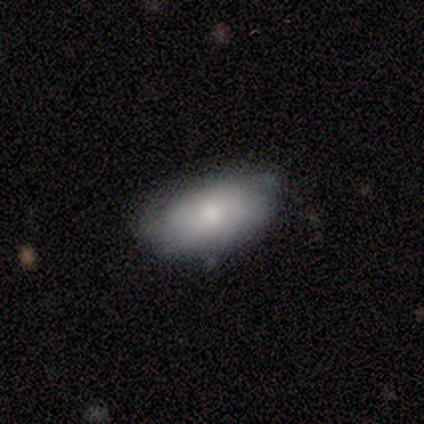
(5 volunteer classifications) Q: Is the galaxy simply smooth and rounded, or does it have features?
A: smooth — 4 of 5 (80%).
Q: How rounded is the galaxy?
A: in between — 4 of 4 (100%).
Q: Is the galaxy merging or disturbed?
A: none — 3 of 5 (60%).